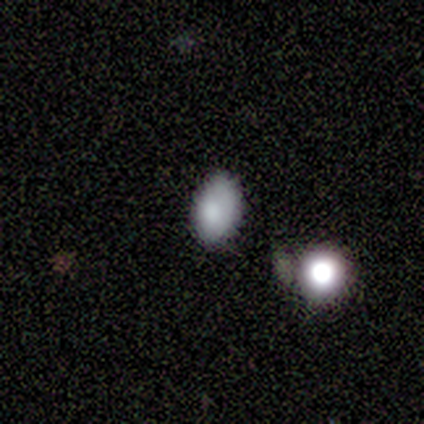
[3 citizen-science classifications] smooth 100%, featured or disk 0%, star or artifact 0%. Down the decision tree: how rounded — in between (100%); merging — none (100%).